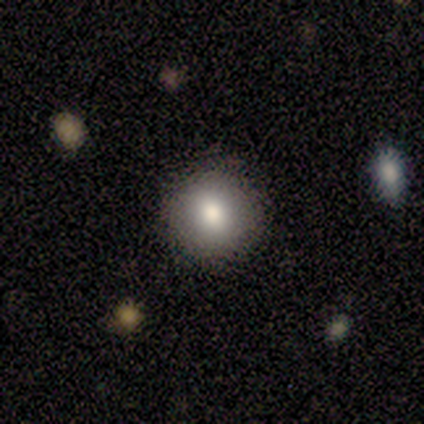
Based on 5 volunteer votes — This is clearly a smooth galaxy (100%). How rounded: clearly round (100%). Merging: clearly none (100%).